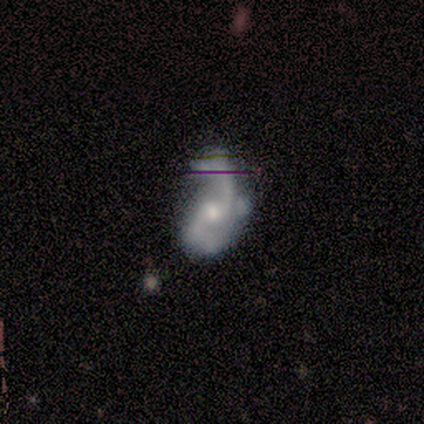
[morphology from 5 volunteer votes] A featured or disk galaxy (40%, tied with star or artifact) with a weak bar (50%, tied with no), 2 (100%) loose (100%) spiral arms (50%, tied with no) and a small central bulge (100%). Merging: minor disturbance (100%).